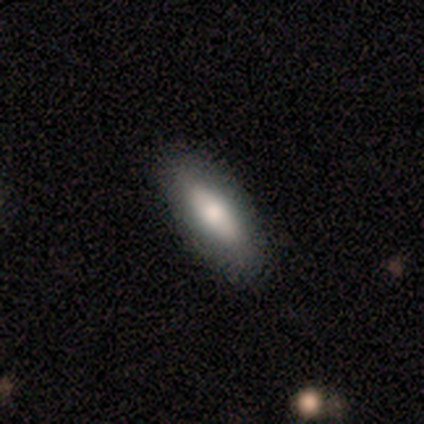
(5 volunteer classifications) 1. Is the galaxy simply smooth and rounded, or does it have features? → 40% smooth (tied), 40% featured or disk (tied), 20% star or artifact.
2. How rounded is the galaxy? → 50% in between (tied), 50% cigar-shaped (tied), 0% round.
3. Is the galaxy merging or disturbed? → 75% none, 25% minor disturbance, 0% major disturbance, 0% merger.